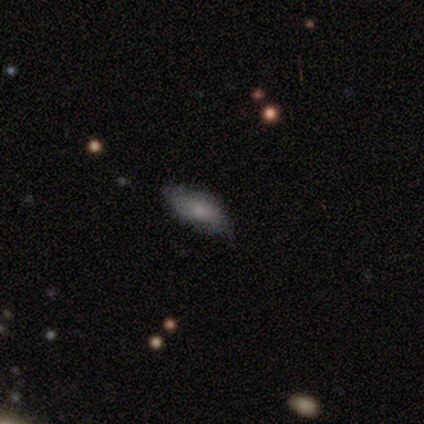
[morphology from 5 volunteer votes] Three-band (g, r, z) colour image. It shows a smooth galaxy with no disk features (60%) that is in between round and cigar-shaped (100%). Merging: none (60%).